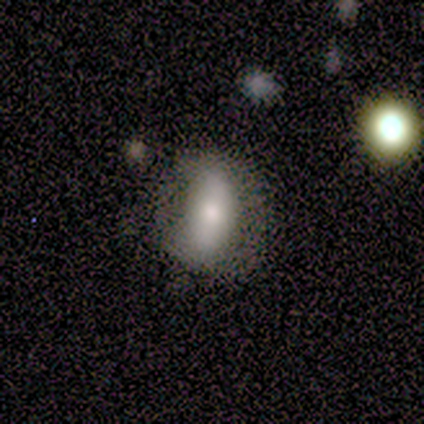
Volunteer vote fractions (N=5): Q: Smooth or featured?
A: smooth (80%); runner-up: featured or disk (20%)
Q: How rounded?
A: in between (100%)
Q: Merging?
A: none (80%); runner-up: major disturbance (20%)